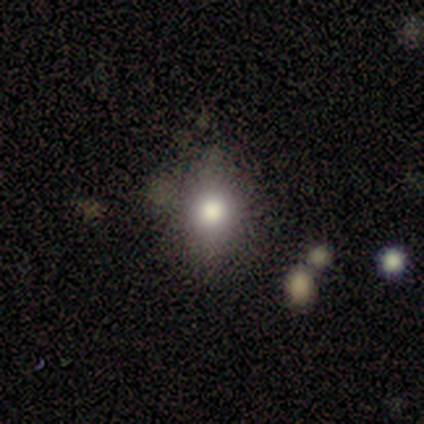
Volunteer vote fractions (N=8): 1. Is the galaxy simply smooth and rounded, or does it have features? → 88% smooth, 12% star or artifact, 0% featured or disk.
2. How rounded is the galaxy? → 57% in between, 43% round, 0% cigar-shaped.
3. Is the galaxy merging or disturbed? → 71% none, 29% minor disturbance, 0% major disturbance, 0% merger.